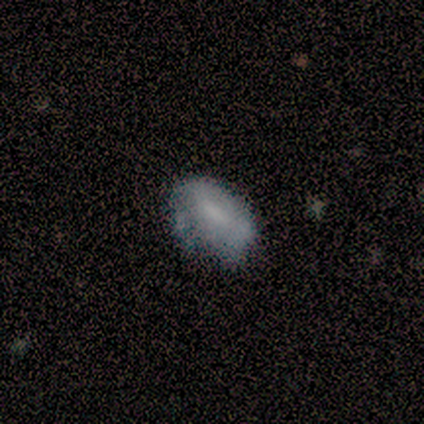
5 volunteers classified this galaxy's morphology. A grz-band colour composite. It shows a smooth galaxy with no disk features (80%) that is in between round and cigar-shaped (100%). Merging: none (40%, tied with minor disturbance).